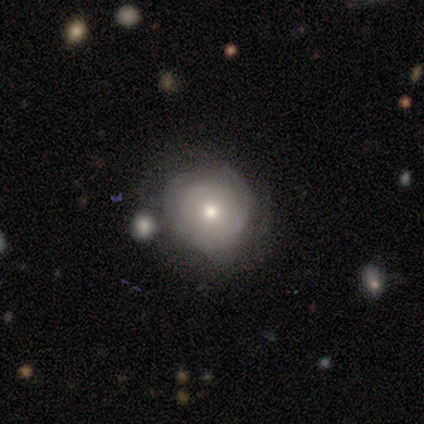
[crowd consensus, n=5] smooth_or_featured: smooth (p=0.40) [tied with: featured or disk p=0.40]
how_rounded: round (p=0.50) [tied with: in between p=0.50]
merging: minor disturbance (p=0.50) [tied with: merger p=0.50]